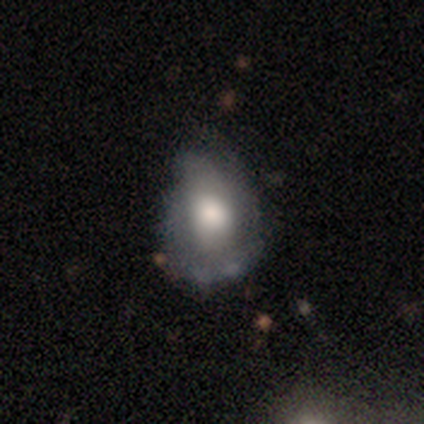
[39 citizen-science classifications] Q: Smooth or featured?
A: smooth (51%); runner-up: featured or disk (41%)
Q: How rounded?
A: in between (80%); runner-up: round (20%)
Q: Merging?
A: minor disturbance (67%); runner-up: none (14%)